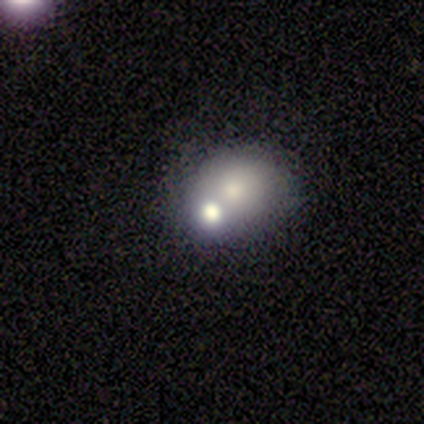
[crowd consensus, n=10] Smooth or featured? 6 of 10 (60%) said smooth. How rounded? 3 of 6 (50%, tied with in between) said round. Merging? 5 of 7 (71%) said merger.